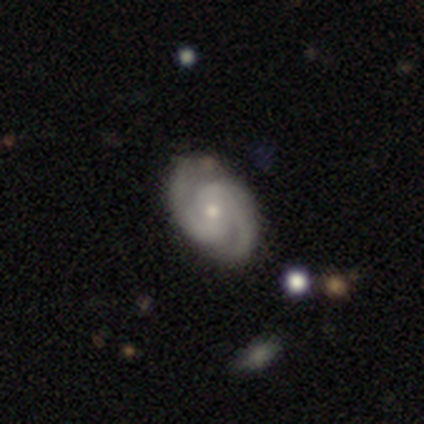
Overall: featured or disk (84%). Edge-on disk: no (97%). Bar: no (45%; weak 44%). Spiral arms: yes (96%). Spiral arm count: 2 (86%). Spiral winding: medium (47%; tight 44%). Bulge size: small (65%; moderate 31%). Merging: none (80%).